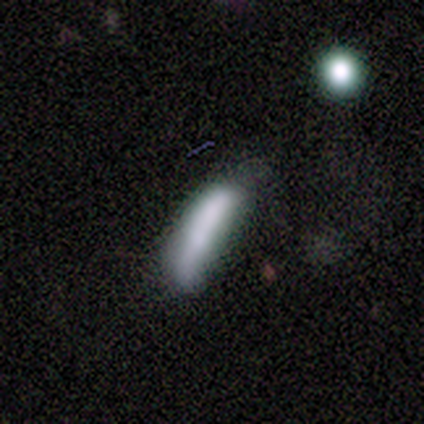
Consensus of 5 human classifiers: Volunteers were most divided on "how rounded" (2-way tie): in between: 50%, cigar-shaped: 50%, round: 0%; "merging" (2-way tie): none: 40%, minor disturbance: 40%, major disturbance: 20%, merger: 0%. More confident: smooth or featured — smooth (80%).